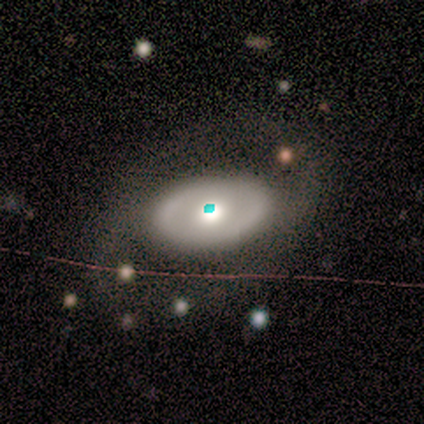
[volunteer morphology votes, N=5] smooth-or-featured: smooth: 60% | featured or disk: 20% | star or artifact: 20%
  how-rounded: in between: 100% | round: 0% | cigar-shaped: 0%
  merging: none: 75% | major disturbance: 25% | minor disturbance: 0% | merger: 0%